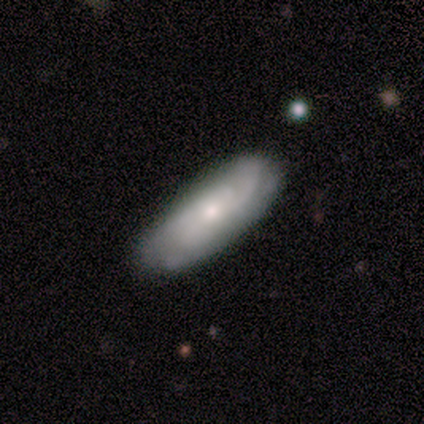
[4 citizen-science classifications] smooth 50% (tied), featured or disk 50% (tied), star or artifact 0%. Down the decision tree: how rounded — in between (50%, tied with cigar-shaped); merging — none (100%).